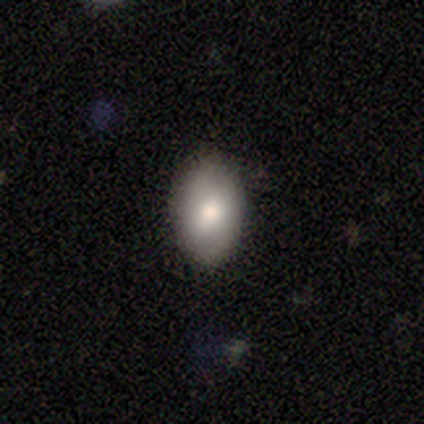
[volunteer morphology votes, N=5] type=smooth (100%); roundness=in between (100%); merging=none (100%).